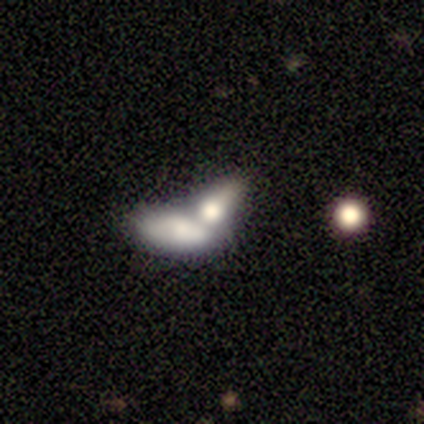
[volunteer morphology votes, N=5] A smooth galaxy with no disk features (80%) that is in between round and cigar-shaped (75%).

Vote fractions:
- Smooth or featured? smooth: 80% / featured or disk: 20% / star or artifact: 0%
- How rounded? in between: 75% / cigar-shaped: 25% / round: 0%
- Merging? merger: 60% / none: 20% / major disturbance: 20% / minor disturbance: 0%